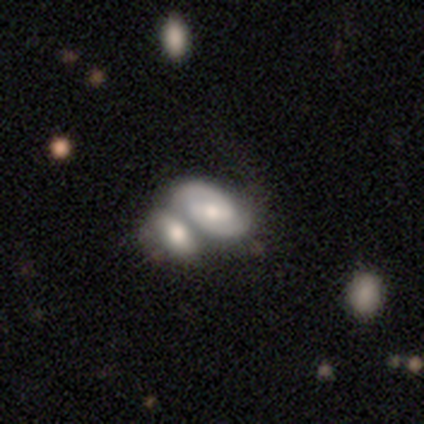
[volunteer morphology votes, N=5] Smooth or featured: featured or disk — 100%
Edge-on disk: no — 100%
Bar: weak — 80% (strong — 20%)
Spiral arms: yes — 100%
Spiral winding: tight — 40% (tied with medium — 40%)
Spiral arm count: 2 — 100%
Bulge size: moderate — 80% (small — 20%)
Merging: merger — 60% (none — 20%)